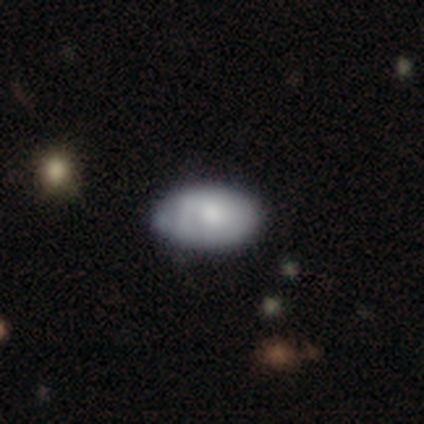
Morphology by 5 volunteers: Q: Smooth or featured?
A: featured or disk (60%); runner-up: smooth (40%)
Q: Edge-on disk?
A: no (67%); runner-up: yes (33%)
Q: Bar?
A: no (100%)
Q: Spiral arms?
A: no (100%)
Q: Bulge size?
A: moderate (50%); tied with: small (50%)
Q: Merging?
A: minor disturbance (60%); runner-up: none (40%)